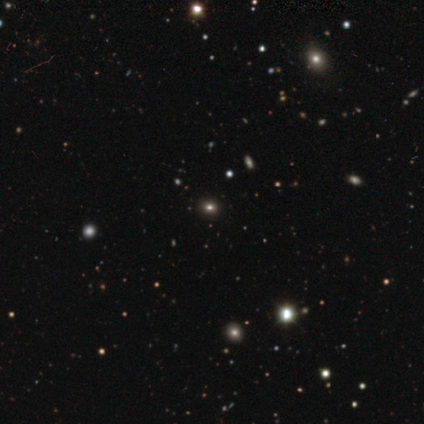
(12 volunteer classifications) Volunteers were most divided on "smooth or featured": star or artifact: 50%, smooth: 42%, featured or disk: 8%.